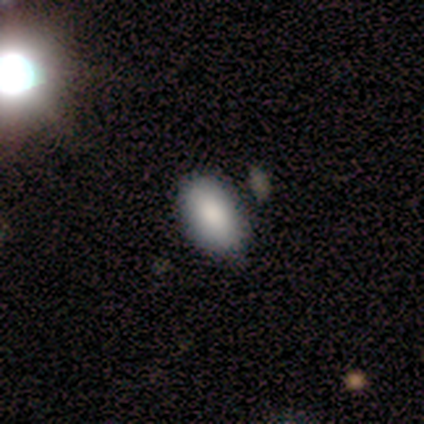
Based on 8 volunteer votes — A smooth galaxy with no disk features (75%) that is in between round and cigar-shaped (100%).

Vote fractions:
- Smooth or featured? smooth: 75% / featured or disk: 12% / star or artifact: 12%
- How rounded? in between: 100% / round: 0% / cigar-shaped: 0%
- Merging? none: 57% / minor disturbance: 29% / major disturbance: 14% / merger: 0%